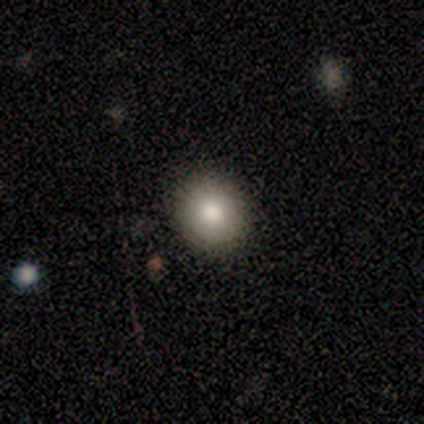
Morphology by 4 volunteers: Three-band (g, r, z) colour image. It shows a smooth galaxy with no disk features (100%) that is round (75%). Merging: none (100%).